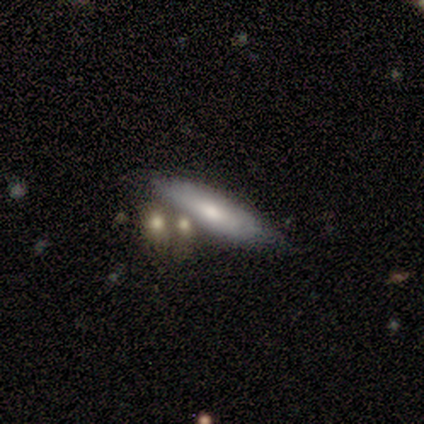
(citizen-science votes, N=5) Overall: featured or disk (60%; smooth 40%). Edge-on disk: no (100%). Bar: no (100%). Spiral arms: no (67%; yes 33%). Bulge size: moderate (33%, tied with small and none). Merging: none (60%; minor disturbance 20%).